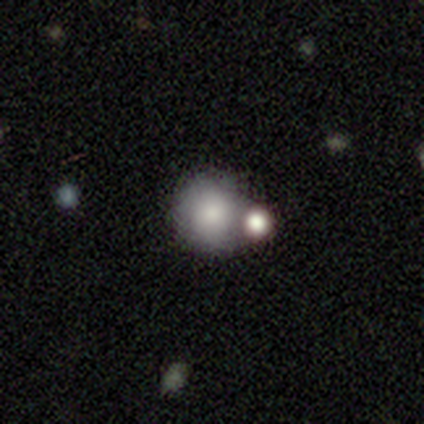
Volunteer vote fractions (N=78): Q: Smooth or featured?
A: smooth (87%); runner-up: featured or disk (8%)
Q: How rounded?
A: round (90%); runner-up: in between (10%)
Q: Merging?
A: merger (32%); runner-up: none (31%)